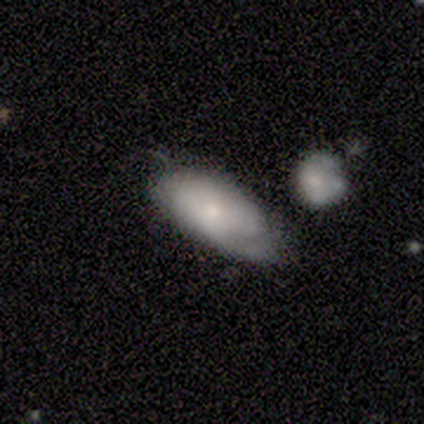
A smooth galaxy with no disk features (50%, tied with featured or disk) that is in between round and cigar-shaped (50%, tied with cigar-shaped). Merging: none (50%).